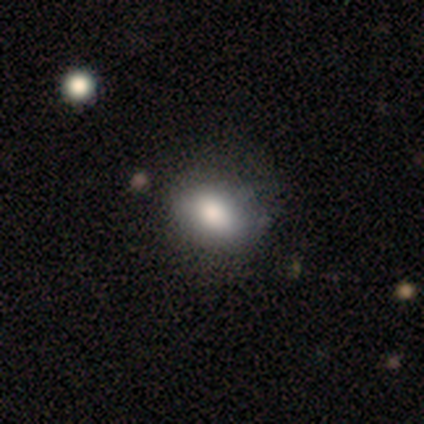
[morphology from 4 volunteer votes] This appears to be a smooth galaxy with no disk features (100%) that is in between round and cigar-shaped (100%). Merging: none (100%).